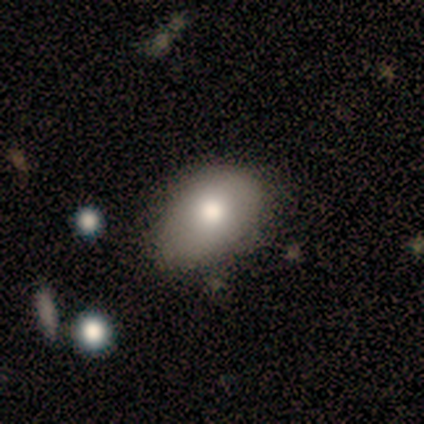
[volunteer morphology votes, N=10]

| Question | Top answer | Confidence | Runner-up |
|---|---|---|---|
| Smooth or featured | smooth | 80% | featured or disk (10%) |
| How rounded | in between | 88% | round (12%) |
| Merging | none | 56% | minor disturbance (44%) |